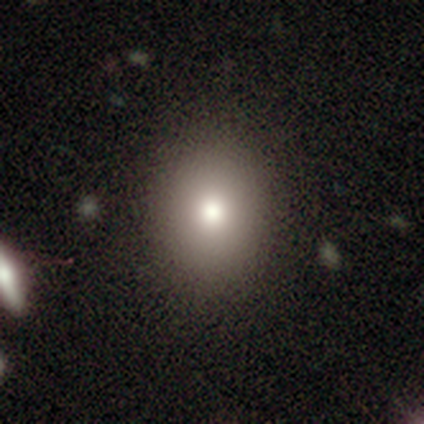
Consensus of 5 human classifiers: This appears to be a smooth galaxy with no disk features (80%) that is round (75%). Merging: none (100%).